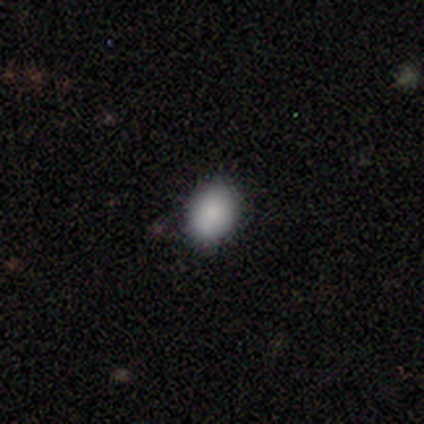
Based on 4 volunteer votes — Morphology: type=smooth (100%); roundness=round (75%); merging=none (75%).